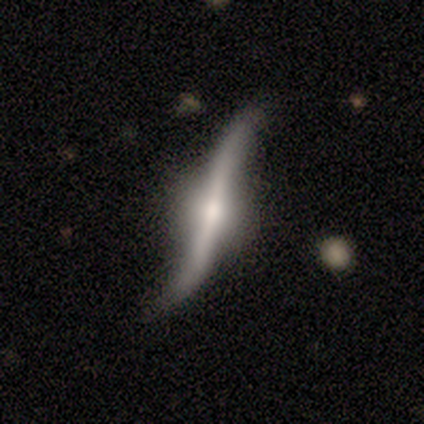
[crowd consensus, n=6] A featured or disk galaxy (83%) viewed edge-on (60%) with a rounded central bulge (67%).

Vote fractions:
- Smooth or featured? featured or disk: 83% / star or artifact: 17% / smooth: 0%
- Edge-on disk? yes: 60% / no: 40%
- Edge-on bulge? rounded: 67% / none: 33% / boxy: 0%
- Merging? none: 60% / minor disturbance: 20% / major disturbance: 20% / merger: 0%